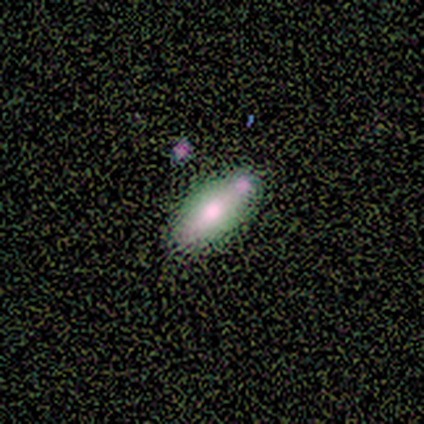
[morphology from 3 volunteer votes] This is likely a featured or disk galaxy (67%). It is clearly viewed edge-on (100%). Edge-on bulge: possibly boxy (50%, tied with rounded). Merging: clearly none (100%).